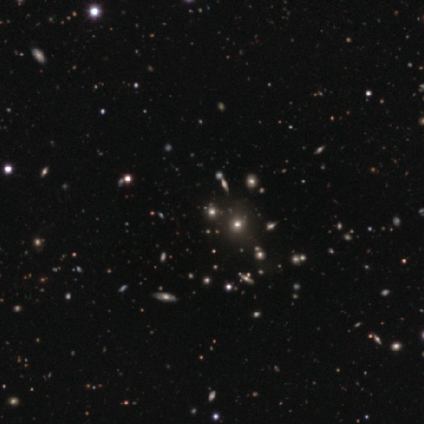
smooth-or-featured: star or artifact: 65% | smooth: 27% | featured or disk: 8%